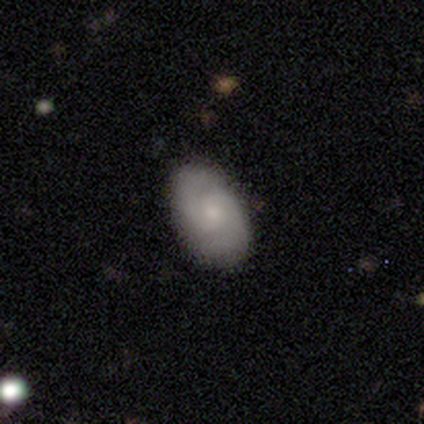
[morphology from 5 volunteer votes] This appears to be a featured or disk galaxy (60%) with no bar (67%), 2 (100%) medium (67%) spiral arms (100%) and a small central bulge (100%). Merging: none (75%).